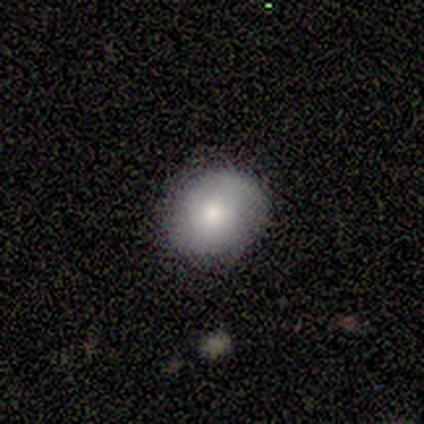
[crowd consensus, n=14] A smooth galaxy with no disk features (64%) that is round (78%).

Vote fractions:
- Smooth or featured? smooth: 64% / featured or disk: 36% / star or artifact: 0%
- How rounded? round: 78% / in between: 22% / cigar-shaped: 0%
- Merging? none: 79% / minor disturbance: 21% / major disturbance: 0% / merger: 0%